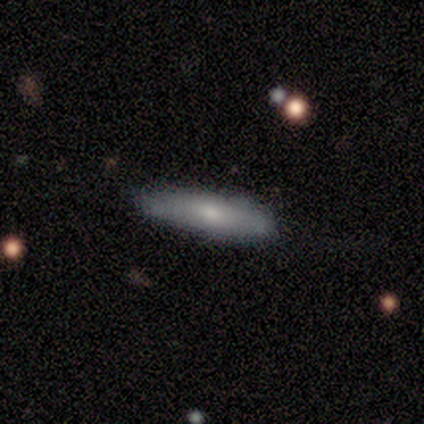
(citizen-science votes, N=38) smooth-or-featured: smooth: 76% | featured or disk: 21% | star or artifact: 3%
  how-rounded: cigar-shaped: 86% | in between: 10% | round: 3%
  merging: none: 89% | minor disturbance: 11% | major disturbance: 0% | merger: 0%